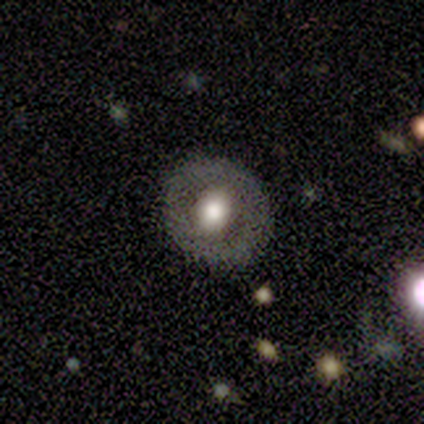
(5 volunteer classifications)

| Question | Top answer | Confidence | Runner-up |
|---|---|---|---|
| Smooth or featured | featured or disk | 80% | smooth (20%) |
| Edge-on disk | no | 100% | — |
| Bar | no | 100% | — |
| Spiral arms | no | 75% | yes (25%) |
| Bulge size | moderate | 75% | large (25%) |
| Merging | none | 100% | — |